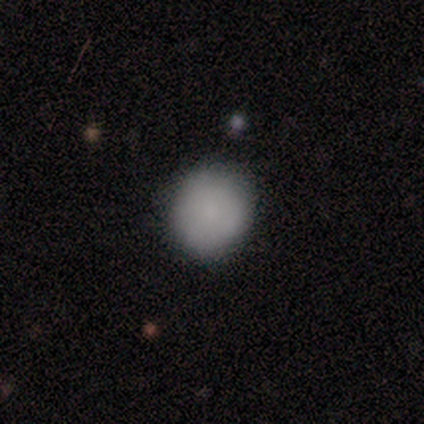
smooth_or_featured: smooth (p=1.00)
how_rounded: round (p=1.00)
merging: none (p=0.80) [alt: minor disturbance p=0.20]